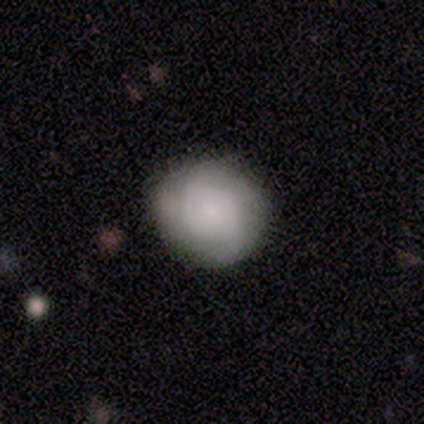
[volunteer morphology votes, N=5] smooth_or_featured: smooth (p=0.60) [alt: featured or disk p=0.20]
how_rounded: round (p=0.67) [alt: in between p=0.33]
merging: none (p=0.25) [tied with: minor disturbance p=0.25, major disturbance p=0.25, merger p=0.25]